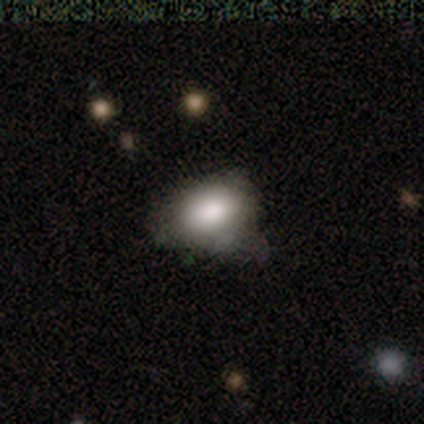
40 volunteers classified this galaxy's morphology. Volunteers were most divided on "merging": none: 57%, minor disturbance: 37%, major disturbance: 3%, merger: 3%. More confident: smooth or featured — smooth (75%); how rounded — in between (70%).